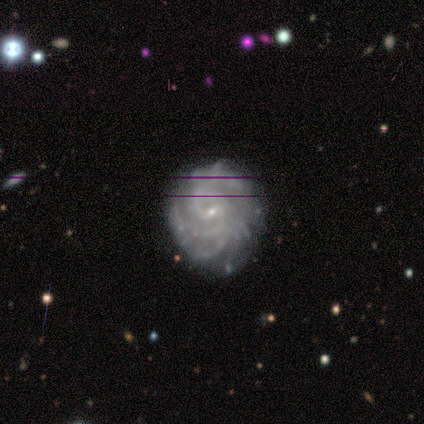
Q: Smooth or featured?
A: featured or disk (80%); runner-up: star or artifact (20%)
Q: Edge-on disk?
A: no (100%)
Q: Bar?
A: weak (50%); tied with: no (50%)
Q: Spiral arms?
A: yes (100%)
Q: Spiral winding?
A: tight (75%); runner-up: medium (25%)
Q: Spiral arm count?
A: 2 (25%); tied with: 3 (25%); 4 (25%); can't tell (25%)
Q: Bulge size?
A: small (100%)
Q: Merging?
A: none (50%); tied with: minor disturbance (50%)